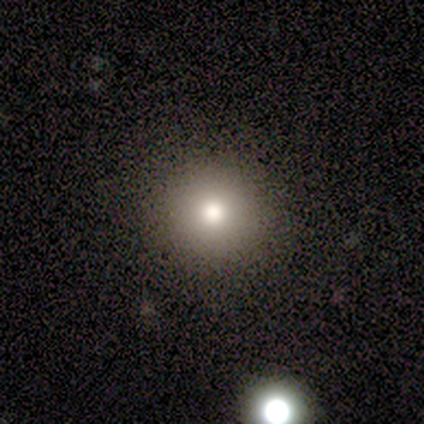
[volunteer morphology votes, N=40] Overall: smooth (72%). How rounded: round (93%). Merging: none (84%).